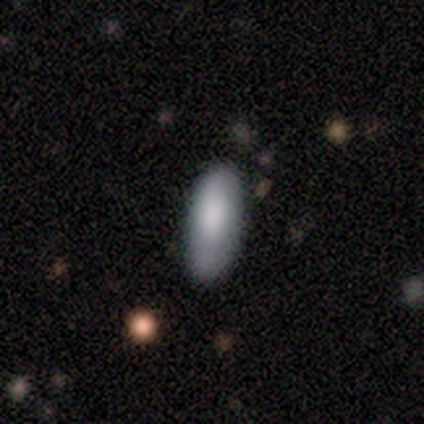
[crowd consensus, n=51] Smooth or featured? 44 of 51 (86%) said smooth. How rounded? 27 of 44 (61%) said in between. Merging? 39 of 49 (80%) said none.